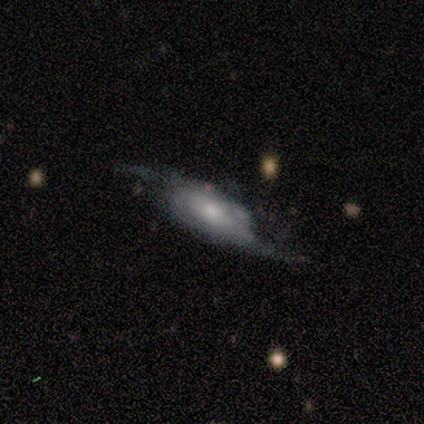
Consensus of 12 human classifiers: featured or disk 75%, smooth 17%, star or artifact 8%. Down the decision tree: edge-on disk — no (89%); bar — no (88%); spiral arms — yes (88%); spiral arm count — 2 (71%); spiral winding — loose (86%); bulge size — moderate (62%); merging — none (73%).